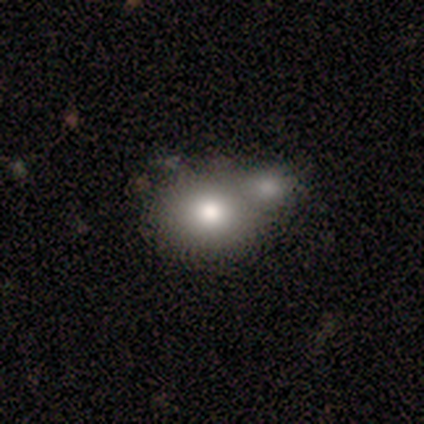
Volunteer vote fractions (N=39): Smooth or featured: smooth — 62% (featured or disk — 23%)
How rounded: round — 54% (in between — 46%)
Merging: merger — 52% (none — 33%)